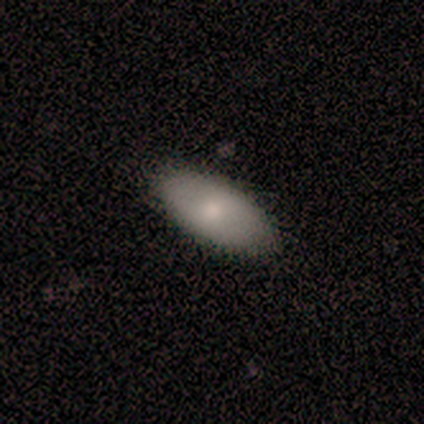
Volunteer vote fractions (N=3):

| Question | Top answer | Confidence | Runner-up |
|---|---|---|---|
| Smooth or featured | smooth | 67% | featured or disk (33%) |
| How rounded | in between | 100% | — |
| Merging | none | 100% | — |